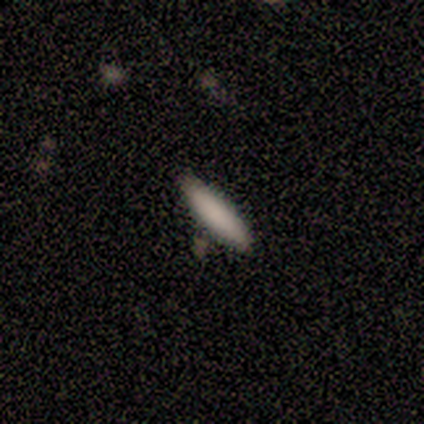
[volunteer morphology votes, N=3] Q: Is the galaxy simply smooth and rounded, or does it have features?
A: smooth — 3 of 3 (100%).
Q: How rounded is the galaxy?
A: cigar-shaped — 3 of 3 (100%).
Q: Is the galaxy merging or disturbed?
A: minor disturbance — 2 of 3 (67%).